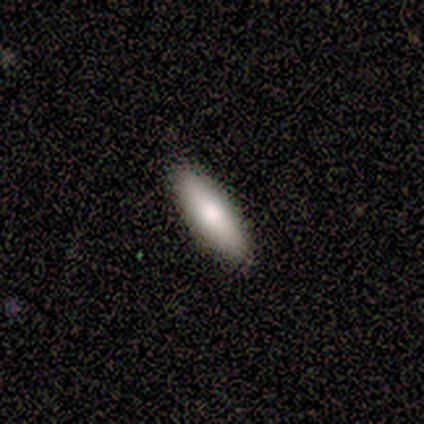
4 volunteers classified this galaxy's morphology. Smooth or featured? smooth (50%, tied with featured or disk)
How rounded? cigar-shaped (100%)
Merging? none (75%)